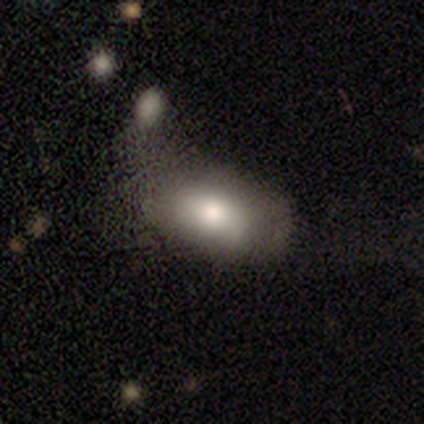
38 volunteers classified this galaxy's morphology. Smooth or featured? 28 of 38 (74%) said smooth. How rounded? 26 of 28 (93%) said in between. Merging? 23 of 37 (62%) said none.